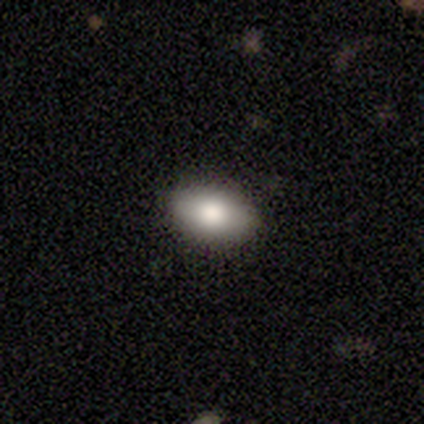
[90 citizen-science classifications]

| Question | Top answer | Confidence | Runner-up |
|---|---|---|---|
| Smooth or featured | smooth | 82% | featured or disk (10%) |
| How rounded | in between | 95% | round (5%) |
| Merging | none | 84% | minor disturbance (14%) |